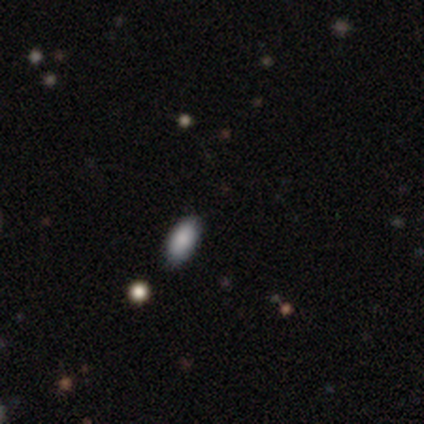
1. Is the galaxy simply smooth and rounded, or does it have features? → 50% smooth (tied), 50% star or artifact (tied), 0% featured or disk.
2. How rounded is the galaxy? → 100% in between, 0% round, 0% cigar-shaped.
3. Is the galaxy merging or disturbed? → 50% none (tied), 50% minor disturbance (tied), 0% major disturbance, 0% merger.